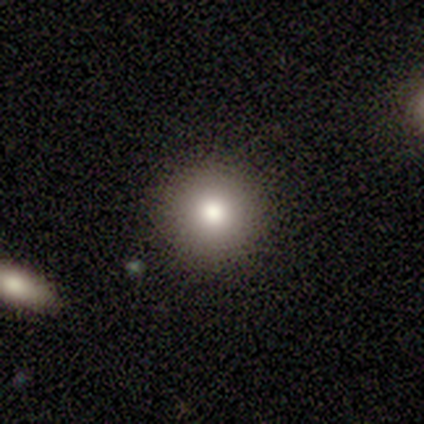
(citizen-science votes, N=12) smooth-or-featured: smooth: 83% | star or artifact: 17% | featured or disk: 0%
  how-rounded: round: 100% | in between: 0% | cigar-shaped: 0%
  merging: none: 100% | minor disturbance: 0% | major disturbance: 0% | merger: 0%